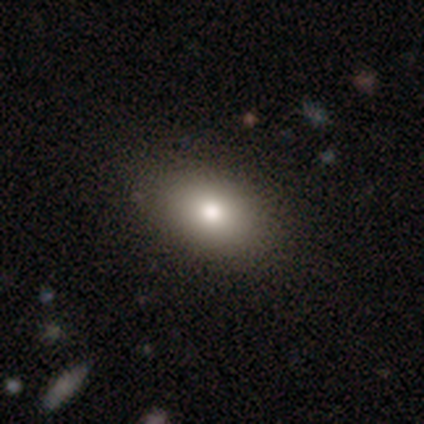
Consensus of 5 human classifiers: A smooth galaxy with no disk features (60%) that is in between round and cigar-shaped (100%). Merging: none (100%).